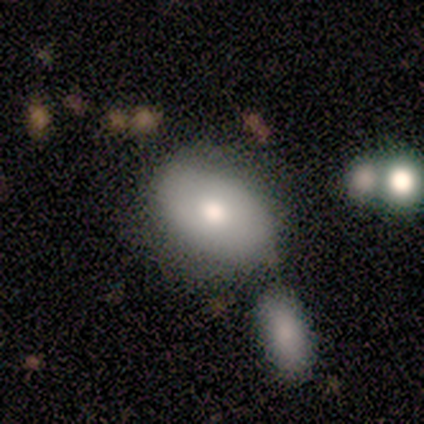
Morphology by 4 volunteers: Volunteers were most divided on "how rounded": in between: 75%, round: 25%, cigar-shaped: 0%. More confident: smooth or featured — smooth (100%); merging — none (75%).